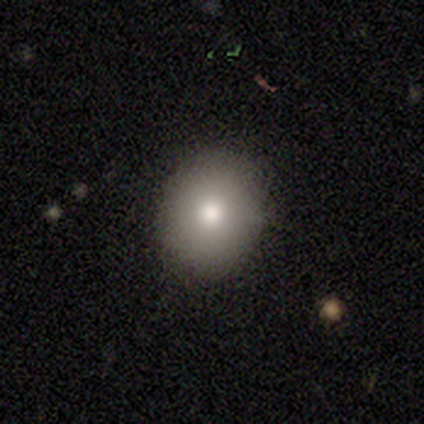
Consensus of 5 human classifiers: Overall: smooth (80%). How rounded: round (50%, tied with in between). Merging: none (75%).